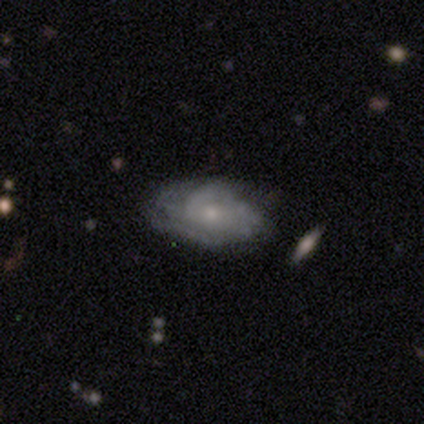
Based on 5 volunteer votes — Volunteers were most divided on "smooth or featured" (2-way tie): smooth: 40%, featured or disk: 40%, star or artifact: 20%; "merging" (2-way tie): none: 50%, minor disturbance: 50%, major disturbance: 0%, merger: 0%. More confident: how rounded — in between (100%).